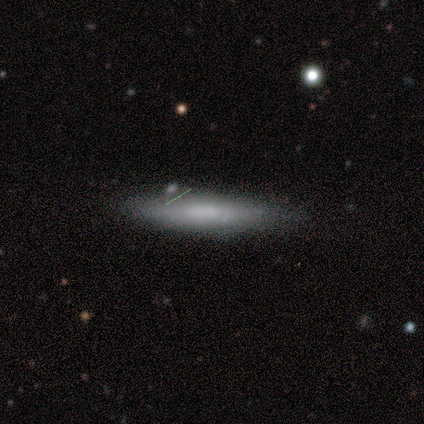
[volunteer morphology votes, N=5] A smooth galaxy with no disk features (60%) that is cigar-shaped (100%).

Vote fractions:
- Smooth or featured? smooth: 60% / featured or disk: 40% / star or artifact: 0%
- How rounded? cigar-shaped: 100% / round: 0% / in between: 0%
- Merging? none: 60% / minor disturbance: 20% / merger: 20% / major disturbance: 0%